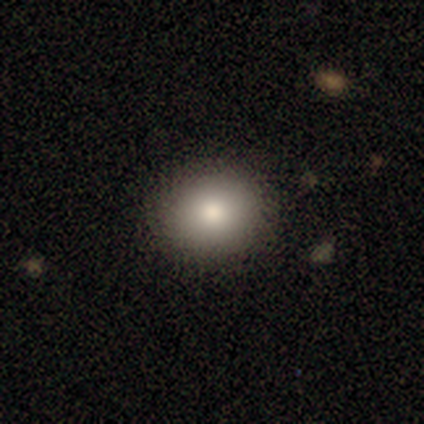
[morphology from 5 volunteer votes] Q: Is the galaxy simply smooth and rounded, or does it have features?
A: smooth — 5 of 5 (100%).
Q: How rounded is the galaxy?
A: round — 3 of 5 (60%).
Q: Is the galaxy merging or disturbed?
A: none — 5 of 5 (100%).